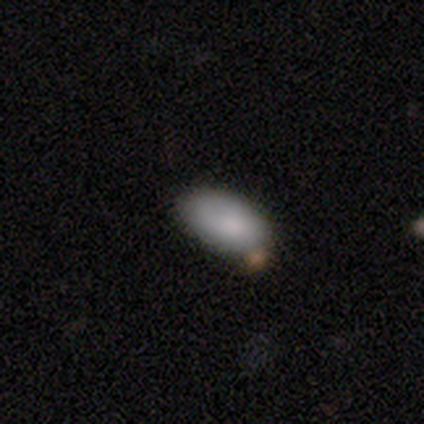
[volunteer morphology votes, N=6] This appears to be a smooth galaxy with no disk features (67%) that is in between round and cigar-shaped (100%). Merging: none (67%).